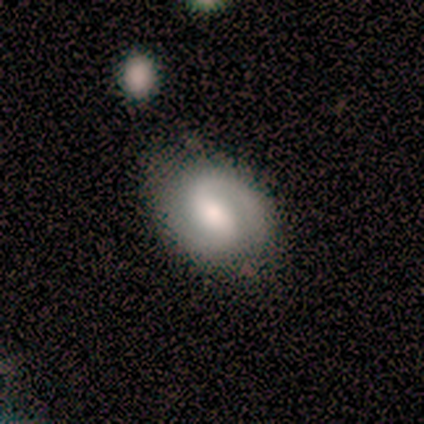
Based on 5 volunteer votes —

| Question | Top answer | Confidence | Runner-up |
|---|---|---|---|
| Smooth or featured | featured or disk | 60% | smooth (40%) |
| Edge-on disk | no | 100% | — |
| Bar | strong | 67% | weak (33%) |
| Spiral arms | yes | 100% | — |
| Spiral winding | tight | 67% | medium (33%) |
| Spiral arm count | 2 | 100% | — |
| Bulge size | moderate | 67% | small (33%) |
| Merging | none | 80% | major disturbance (20%) |